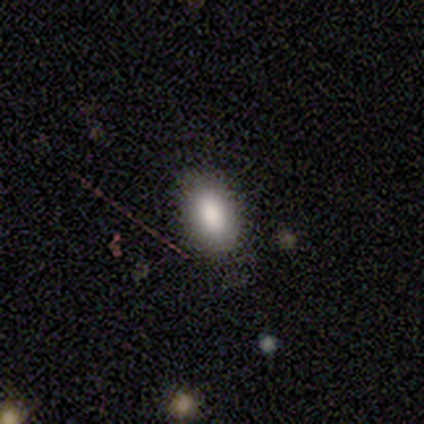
Morphology: type=smooth (82%); roundness=in between (100%); merging=none (90%).